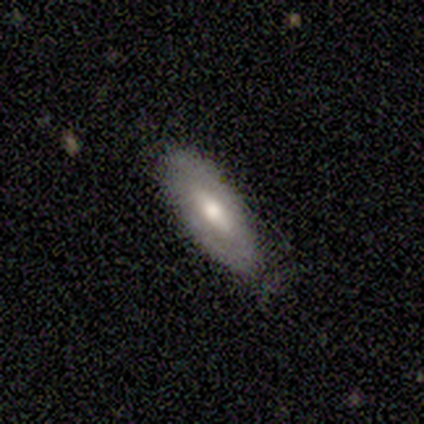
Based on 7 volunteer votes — smooth-or-featured: smooth: 57% | featured or disk: 43% | star or artifact: 0%
  how-rounded: in between: 75% | cigar-shaped: 25% | round: 0%
  merging: none: 57% | minor disturbance: 43% | major disturbance: 0% | merger: 0%